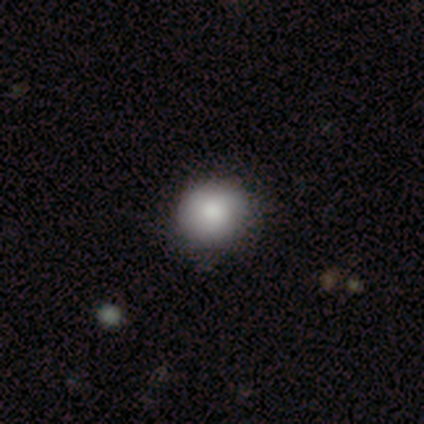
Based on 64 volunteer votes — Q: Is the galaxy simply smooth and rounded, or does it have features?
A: smooth — 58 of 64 (91%).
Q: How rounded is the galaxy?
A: round — 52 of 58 (90%).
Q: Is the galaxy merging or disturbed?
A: none — 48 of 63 (76%).